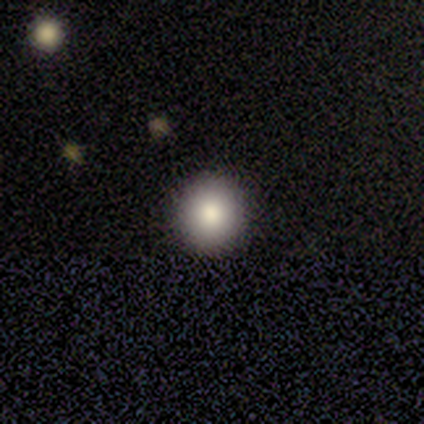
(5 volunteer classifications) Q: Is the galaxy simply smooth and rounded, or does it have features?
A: smooth — 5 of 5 (100%).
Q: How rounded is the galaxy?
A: round — 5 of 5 (100%).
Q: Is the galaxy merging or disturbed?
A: none — 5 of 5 (100%).